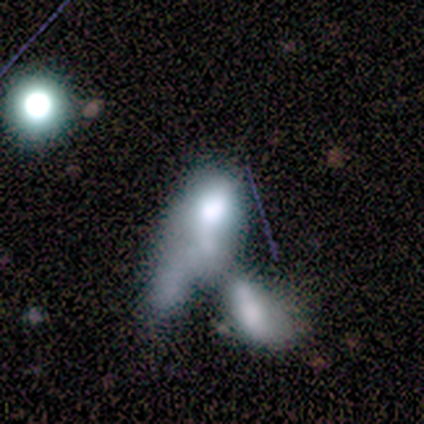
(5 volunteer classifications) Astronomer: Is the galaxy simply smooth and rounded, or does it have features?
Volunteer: smooth — 80%.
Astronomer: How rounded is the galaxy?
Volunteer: round — 50%, tied with cigar-shaped at 50%.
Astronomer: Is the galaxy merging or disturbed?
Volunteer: merger — 100%.